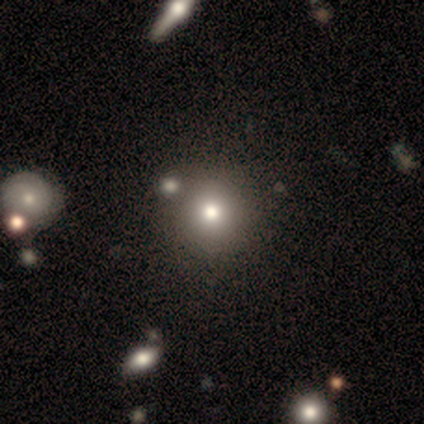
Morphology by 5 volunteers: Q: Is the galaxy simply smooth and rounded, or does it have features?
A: smooth — 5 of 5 (100%).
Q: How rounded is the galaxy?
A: round — 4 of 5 (80%).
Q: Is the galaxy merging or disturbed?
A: none — 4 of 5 (80%).